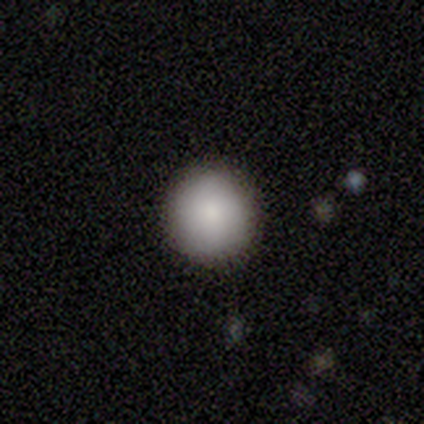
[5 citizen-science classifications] Smooth or featured? smooth (100%)
How rounded? round (100%)
Merging? none (100%)